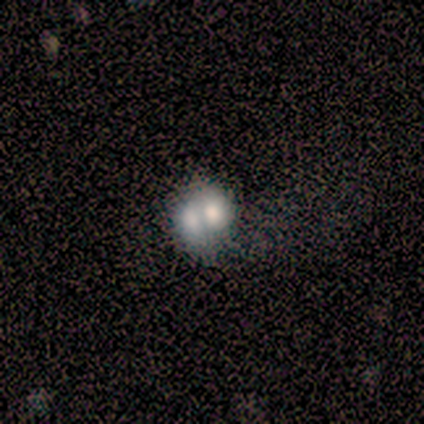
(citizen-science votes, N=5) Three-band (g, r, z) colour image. It shows a smooth galaxy with no disk features (100%) that is round (80%). Merging: merger (80%).